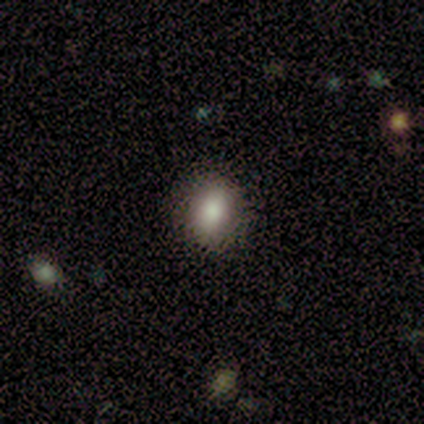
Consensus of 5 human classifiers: Overall: smooth (100%). How rounded: in between (80%). Merging: none (80%).